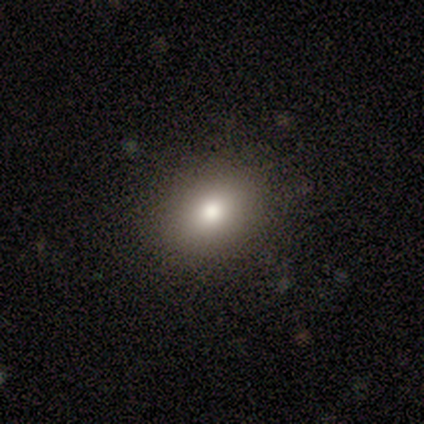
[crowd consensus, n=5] This appears to be a smooth galaxy with no disk features (60%) that is round (67%). Merging: none (100%).